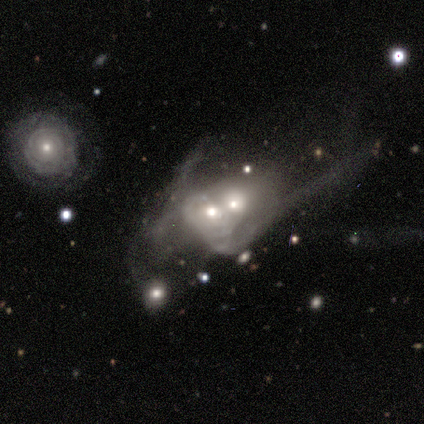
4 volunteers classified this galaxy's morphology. A featured or disk galaxy (75%) with no bar (100%), medium (67%) spiral arms (100%) and a moderate central bulge (67%). Merging: merger (100%).